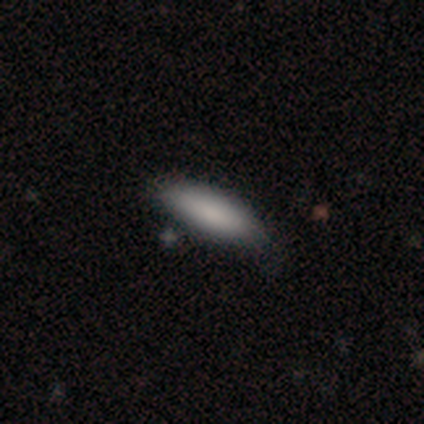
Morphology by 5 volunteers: smooth 100%, featured or disk 0%, star or artifact 0%. Down the decision tree: how rounded — in between (80%); merging — none (80%).